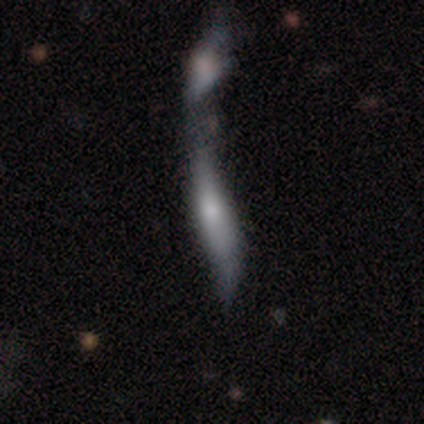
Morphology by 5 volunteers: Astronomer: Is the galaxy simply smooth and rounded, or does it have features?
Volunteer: smooth — 80%.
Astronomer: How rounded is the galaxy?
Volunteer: cigar-shaped — 100%.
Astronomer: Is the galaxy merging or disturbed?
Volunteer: merger — 100%.